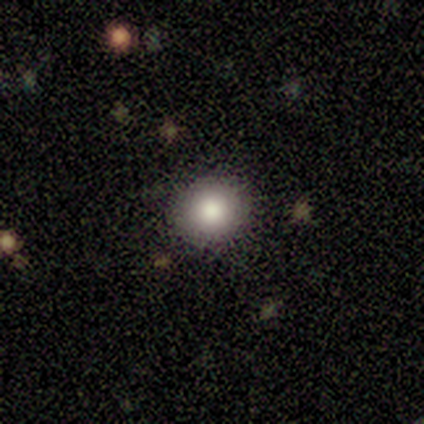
Volunteers were most divided on "merging": none: 80%, minor disturbance: 20%, major disturbance: 0%, merger: 0%. More confident: smooth or featured — smooth (100%); how rounded — round (100%).